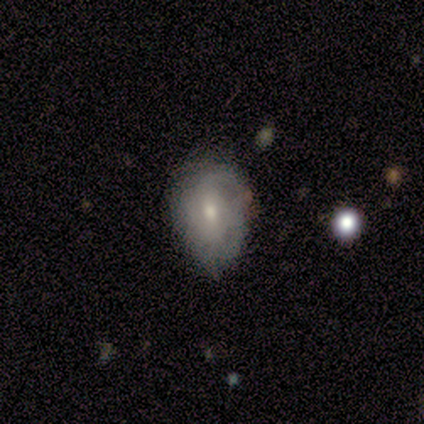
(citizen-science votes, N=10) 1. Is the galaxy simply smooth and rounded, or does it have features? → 50% smooth (tied), 50% featured or disk (tied), 0% star or artifact.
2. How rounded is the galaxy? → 80% in between, 20% round, 0% cigar-shaped.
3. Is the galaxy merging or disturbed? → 70% minor disturbance, 20% none, 10% major disturbance, 0% merger.